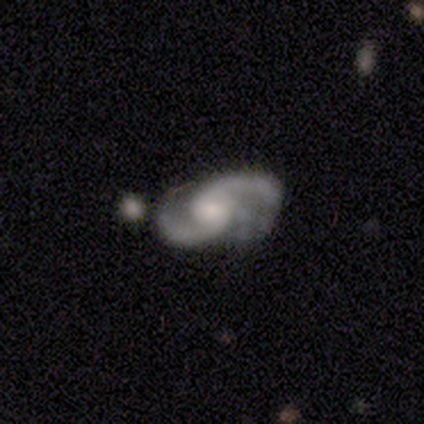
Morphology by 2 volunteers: Overall: featured or disk (100%). Edge-on disk: yes (50%, tied with no). Edge-on bulge: rounded (100%). Merging: none (100%).